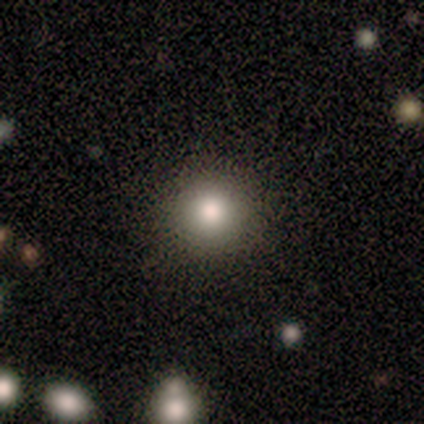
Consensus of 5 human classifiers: This is clearly a smooth galaxy (80%). How rounded: clearly round (100%). Merging: clearly none (100%).